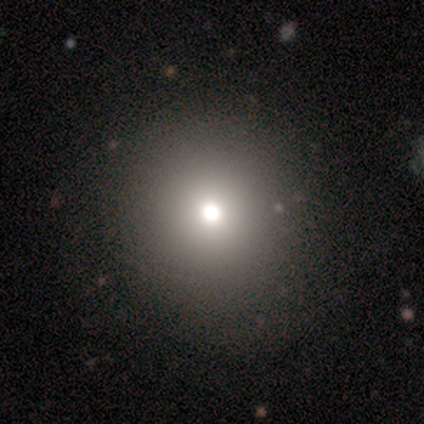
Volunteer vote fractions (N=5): smooth_or_featured: smooth (p=0.40) [tied with: featured or disk p=0.40]
how_rounded: round (p=0.50) [tied with: in between p=0.50]
merging: none (p=0.75) [alt: major disturbance p=0.25]